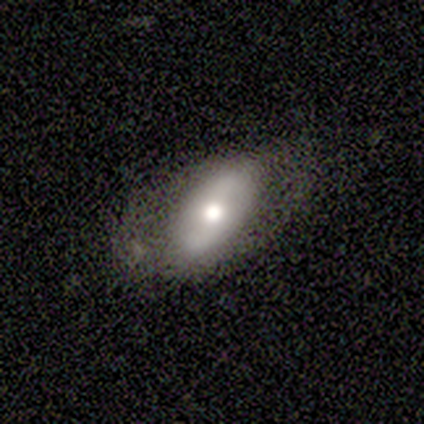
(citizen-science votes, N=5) A featured or disk galaxy (60%) with no bar (100%), no spiral arms (67%) and a moderate central bulge (67%).

Vote fractions:
- Smooth or featured? featured or disk: 60% / smooth: 40% / star or artifact: 0%
- Edge-on disk? no: 100% / yes: 0%
- Bar? no: 100% / strong: 0% / weak: 0%
- Spiral arms? no: 67% / yes: 33%
- Bulge size? moderate: 67% / large: 33% / dominant: 0% / small: 0% / none: 0%
- Merging? none: 80% / major disturbance: 20% / minor disturbance: 0% / merger: 0%